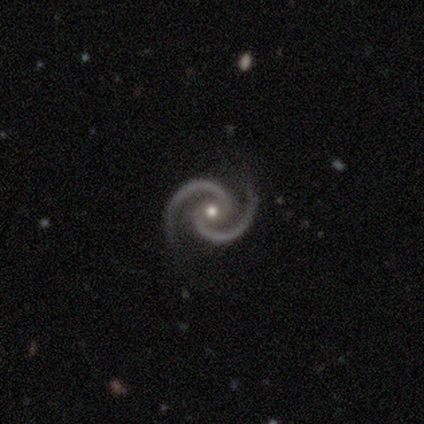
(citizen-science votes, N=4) Morphology: type=featured or disk (100%); edge-on=no (100%); bar=weak (50%, tied with no); spiral arms=yes (100%); winding=tight (50%, tied with medium); arm count=2 (100%); bulge=moderate (75%); merging=none (100%).